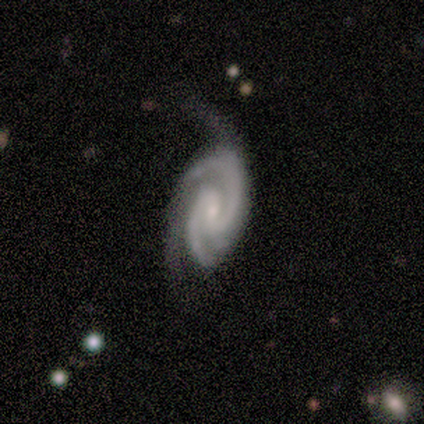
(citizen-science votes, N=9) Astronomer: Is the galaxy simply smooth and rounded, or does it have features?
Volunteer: featured or disk — 100%.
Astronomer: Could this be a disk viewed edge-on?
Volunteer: no — 100%.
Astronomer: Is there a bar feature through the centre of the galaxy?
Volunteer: strong — 33%, tied with weak and no at 33%.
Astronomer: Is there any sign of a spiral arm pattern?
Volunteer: yes — 100%.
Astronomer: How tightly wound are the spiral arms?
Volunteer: tight — 44%, tied with medium at 44%.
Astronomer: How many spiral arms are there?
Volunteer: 2 — 67%.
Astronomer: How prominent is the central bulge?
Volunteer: moderate — 44%, tied with small at 44%.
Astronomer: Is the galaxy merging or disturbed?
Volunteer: none — 56% (runner-up: minor disturbance, 33%).